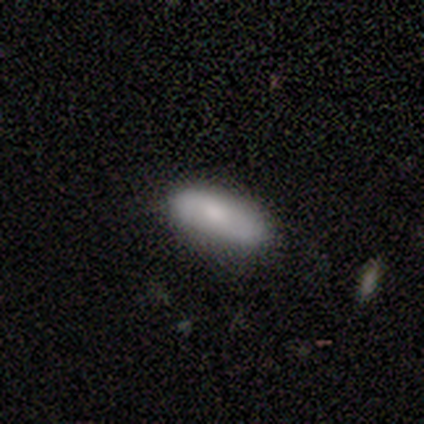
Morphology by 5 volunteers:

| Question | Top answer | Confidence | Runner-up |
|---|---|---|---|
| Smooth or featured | smooth | 60% | featured or disk (20%) |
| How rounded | in between | 67% | cigar-shaped (33%) |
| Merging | none | 75% | minor disturbance (25%) |